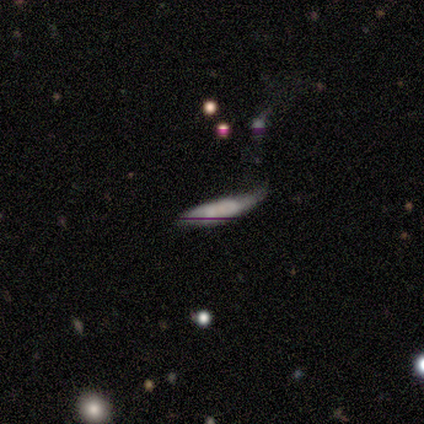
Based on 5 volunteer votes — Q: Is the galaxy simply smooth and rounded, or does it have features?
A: smooth — 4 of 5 (80%).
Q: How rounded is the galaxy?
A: cigar-shaped — 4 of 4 (100%).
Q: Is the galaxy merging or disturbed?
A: minor disturbance — 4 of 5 (80%).